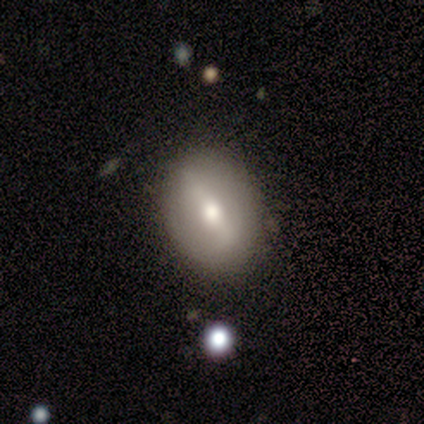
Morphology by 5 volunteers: Smooth or featured? 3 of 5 (60%) said smooth. How rounded? 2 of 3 (67%) said in between. Merging? 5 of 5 (100%) said none.